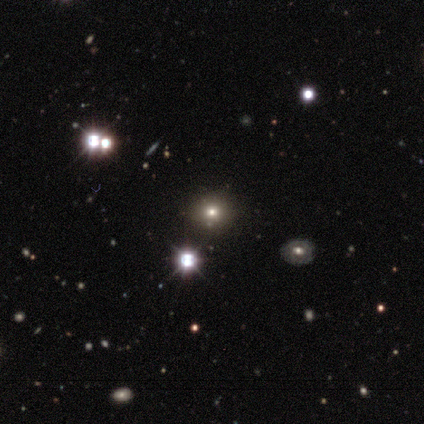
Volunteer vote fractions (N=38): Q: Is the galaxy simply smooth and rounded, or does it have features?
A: star or artifact — 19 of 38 (50%).